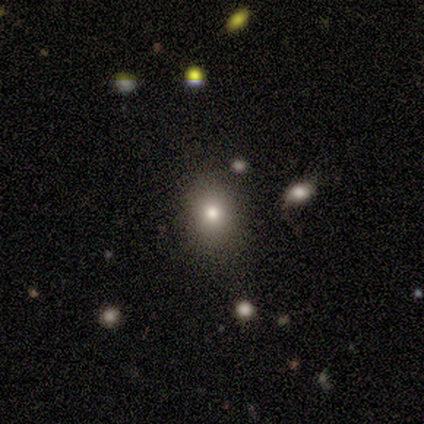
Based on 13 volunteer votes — smooth-or-featured: smooth: 77% | star or artifact: 15% | featured or disk: 8%
  how-rounded: round: 60% | in between: 40% | cigar-shaped: 0%
  merging: none: 91% | merger: 9% | minor disturbance: 0% | major disturbance: 0%